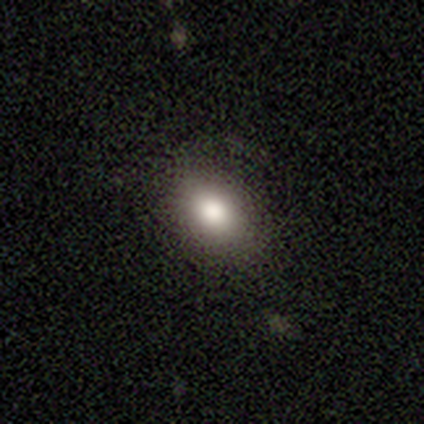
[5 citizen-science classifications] Smooth or featured?
  - smooth: 80% *
  - star or artifact: 20%
  - featured or disk: 0%
How rounded?
  - in between: 100% *
  - round: 0%
  - cigar-shaped: 0%
Merging?
  - none: 100% *
  - minor disturbance: 0%
  - major disturbance: 0%
  - merger: 0%